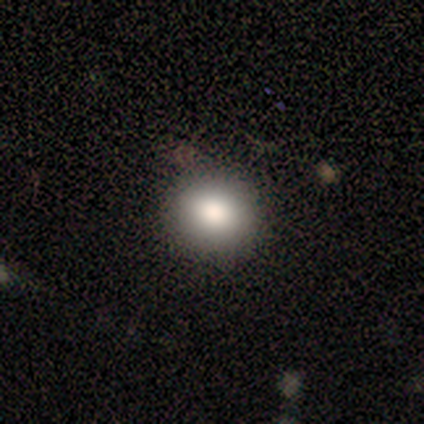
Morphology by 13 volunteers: Volunteers were most divided on "how rounded": round: 62%, in between: 38%, cigar-shaped: 0%. More confident: smooth or featured — smooth (100%); merging — none (92%).